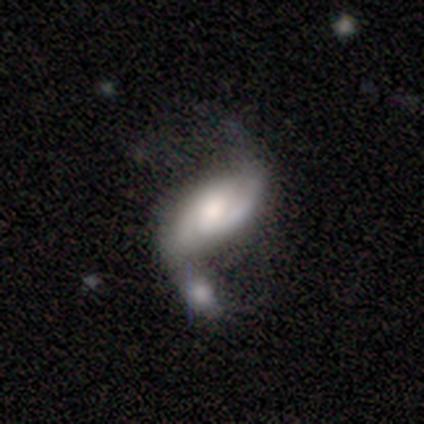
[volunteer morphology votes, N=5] smooth_or_featured: featured or disk (p=1.00)
disk_edge_on: no (p=1.00)
bar: no (p=0.60) [alt: strong p=0.20]
has_spiral_arms: yes (p=1.00)
spiral_winding: loose (p=0.60) [alt: tight p=0.20]
spiral_arm_count: 2 (p=0.80) [alt: can't tell p=0.20]
bulge_size: moderate (p=0.60) [alt: large p=0.20]
merging: merger (p=0.80) [alt: major disturbance p=0.20]